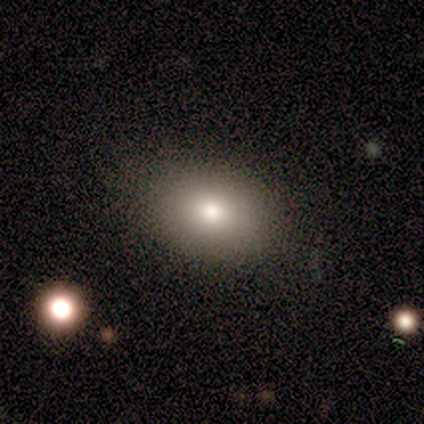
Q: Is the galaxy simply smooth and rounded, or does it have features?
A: smooth — 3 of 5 (60%).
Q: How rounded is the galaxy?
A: round — 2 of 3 (67%).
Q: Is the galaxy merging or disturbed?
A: none — 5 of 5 (100%).